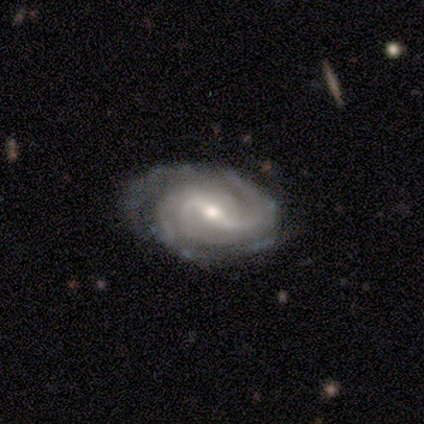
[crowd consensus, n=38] featured or disk 97%, star or artifact 3%, smooth 0%. Down the decision tree: edge-on disk — no (97%); bar — weak (61%); spiral arms — yes (100%); spiral arm count — 2 (50%); spiral winding — tight (42%); bulge size — moderate (50%); merging — none (78%).